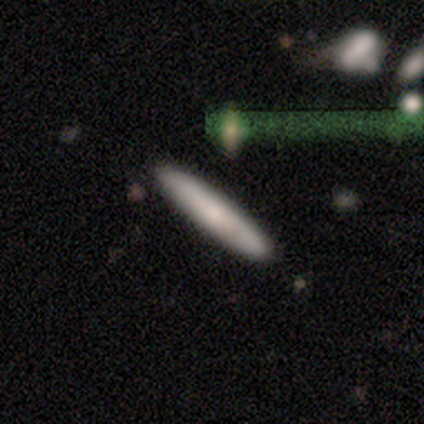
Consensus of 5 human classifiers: smooth_or_featured: smooth (p=1.00)
how_rounded: cigar-shaped (p=0.80) [alt: in between p=0.20]
merging: none (p=0.80) [alt: minor disturbance p=0.20]